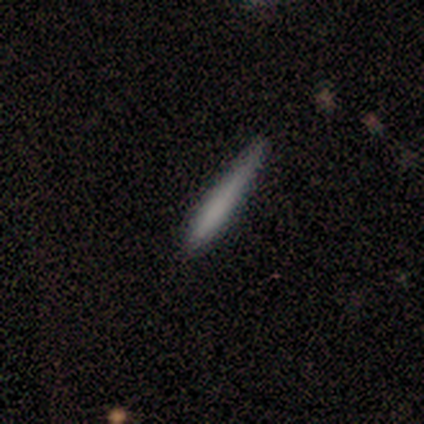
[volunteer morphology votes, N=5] Overall: smooth (80%). How rounded: cigar-shaped (100%). Merging: none (80%).